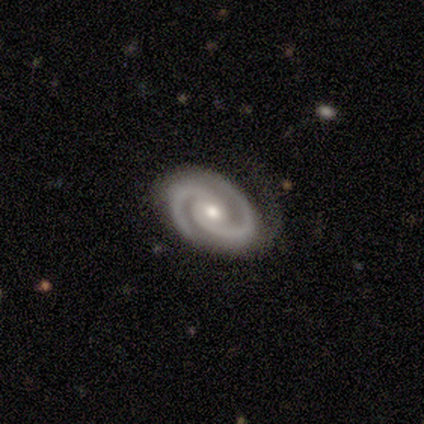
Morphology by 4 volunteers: featured or disk 100%, smooth 0%, star or artifact 0%. Down the decision tree: edge-on disk — no (100%); bar — no (100%); spiral arms — yes (100%); spiral arm count — 2 (100%); spiral winding — tight (100%); bulge size — moderate (75%); merging — none (50%).